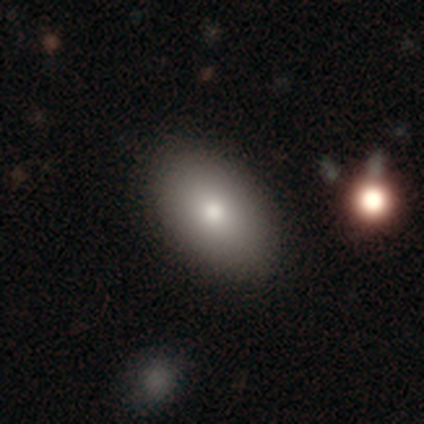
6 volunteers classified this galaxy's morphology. Overall: smooth (100%). How rounded: in between (67%; round 33%). Merging: none (83%).